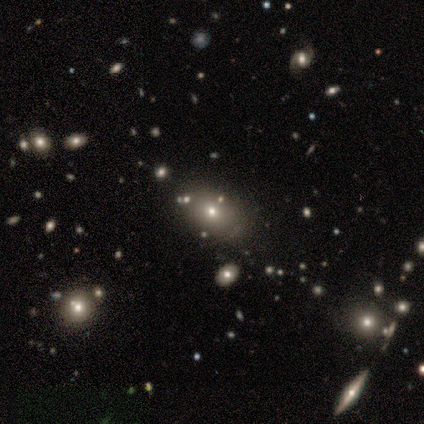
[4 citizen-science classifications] Smooth or featured? 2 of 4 (50%) said smooth. How rounded? 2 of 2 (100%) said round. Merging? 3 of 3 (100%) said none.